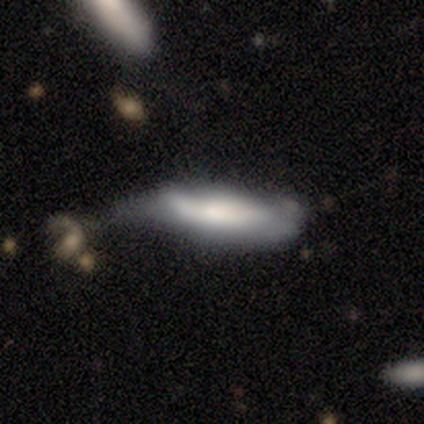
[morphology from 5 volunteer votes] A smooth galaxy with no disk features (60%) that is in between round and cigar-shaped (67%). Merging: minor disturbance (60%).